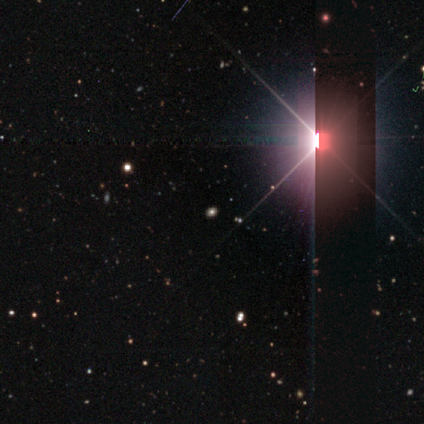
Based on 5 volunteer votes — Smooth or featured: star or artifact — 80% (smooth — 20%)